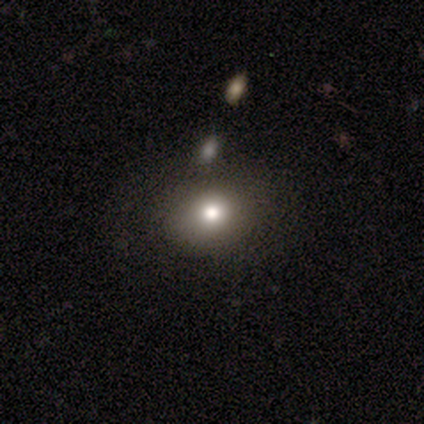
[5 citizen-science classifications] Q: Smooth or featured?
A: smooth (80%); runner-up: featured or disk (20%)
Q: How rounded?
A: round (50%); tied with: in between (50%)
Q: Merging?
A: none (80%); runner-up: minor disturbance (20%)